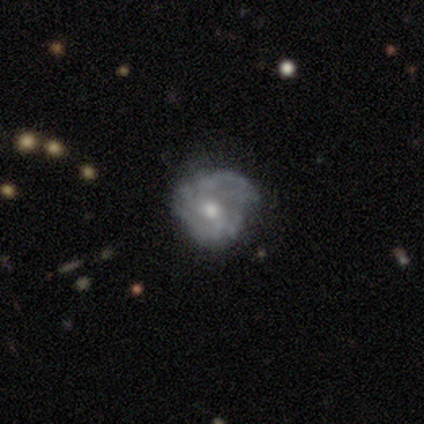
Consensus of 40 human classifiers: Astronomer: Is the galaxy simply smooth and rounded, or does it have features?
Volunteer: featured or disk — 70%.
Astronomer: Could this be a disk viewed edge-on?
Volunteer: no — 93%.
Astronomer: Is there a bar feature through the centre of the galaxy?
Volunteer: no — 73%.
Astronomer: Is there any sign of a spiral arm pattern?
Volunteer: yes — 58% (runner-up: no, 42%).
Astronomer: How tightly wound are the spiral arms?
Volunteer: tight — 47% (runner-up: medium, 33%).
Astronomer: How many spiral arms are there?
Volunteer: can't tell — 60%.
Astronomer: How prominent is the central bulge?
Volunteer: moderate — 54% (runner-up: small, 31%).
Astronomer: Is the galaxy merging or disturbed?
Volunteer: none — 46% (runner-up: minor disturbance, 33%).